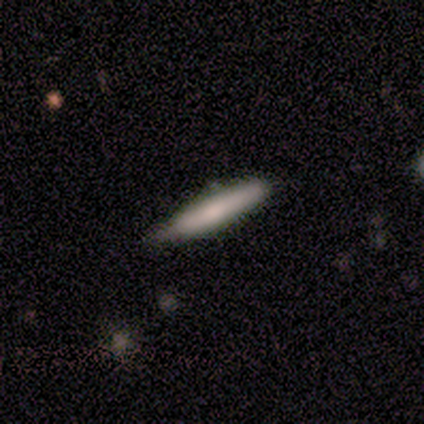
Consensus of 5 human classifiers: A smooth galaxy with no disk features (80%) that is cigar-shaped (100%).

Vote fractions:
- Smooth or featured? smooth: 80% / featured or disk: 20% / star or artifact: 0%
- How rounded? cigar-shaped: 100% / round: 0% / in between: 0%
- Merging? none: 60% / minor disturbance: 40% / major disturbance: 0% / merger: 0%